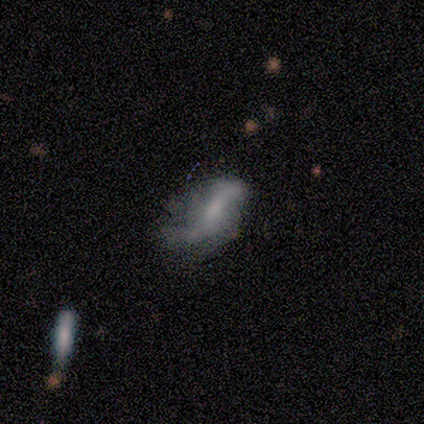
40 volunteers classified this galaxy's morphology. Smooth or featured? 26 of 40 (65%) said featured or disk. Edge-on disk? 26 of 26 (100%) said no. Bar? 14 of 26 (54%) said no. Spiral arms? 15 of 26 (58%) said yes. Spiral winding? 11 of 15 (73%) said loose. Spiral arm count? 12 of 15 (80%) said 2. Bulge size? 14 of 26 (54%) said small. Merging? 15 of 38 (39%) said none.